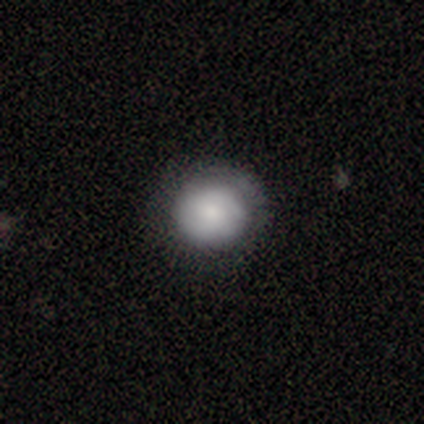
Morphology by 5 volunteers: A smooth galaxy with no disk features (60%) that is round (100%). Merging: none (60%).